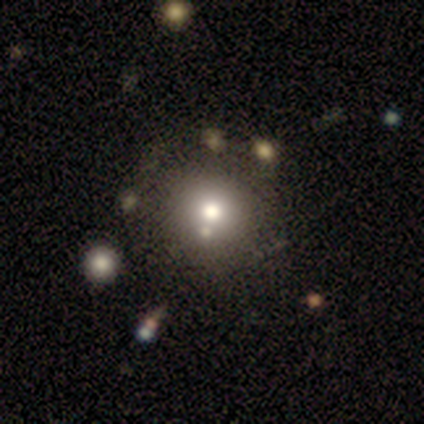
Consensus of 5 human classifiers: Volunteers were most divided on "merging": none: 80%, minor disturbance: 20%, major disturbance: 0%, merger: 0%. More confident: smooth or featured — smooth (100%); how rounded — round (100%).